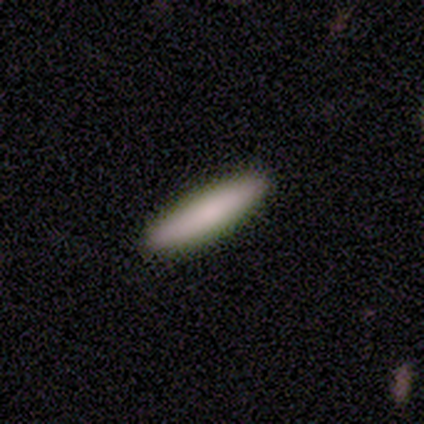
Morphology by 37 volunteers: Smooth or featured?
  - smooth: 84% *
  - featured or disk: 8%
  - star or artifact: 8%
How rounded?
  - cigar-shaped: 90% *
  - in between: 10%
  - round: 0%
Merging?
  - none: 94% *
  - minor disturbance: 6%
  - major disturbance: 0%
  - merger: 0%